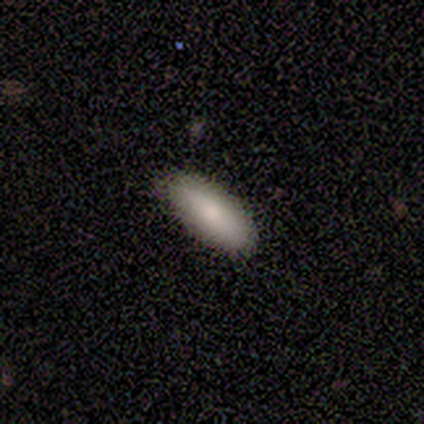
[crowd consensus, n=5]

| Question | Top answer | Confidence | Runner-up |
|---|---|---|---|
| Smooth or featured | smooth | 80% | star or artifact (20%) |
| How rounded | in between | 100% | — |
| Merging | none | 100% | — |